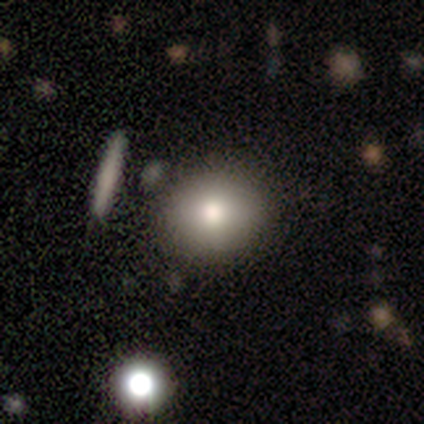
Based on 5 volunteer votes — This is clearly a smooth galaxy (80%). How rounded: likely round (75%). Merging: possibly none (50%).